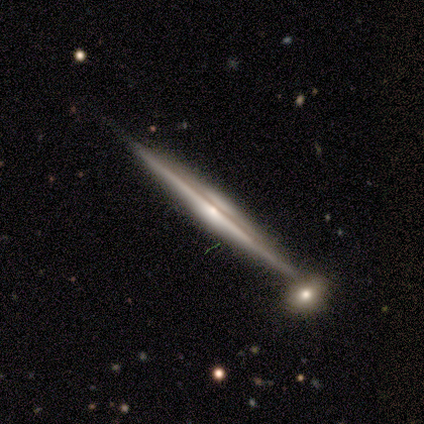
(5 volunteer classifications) Morphology: type=featured or disk (100%); edge-on=yes (100%); edge-on bulge=rounded (100%); merging=none (80%).